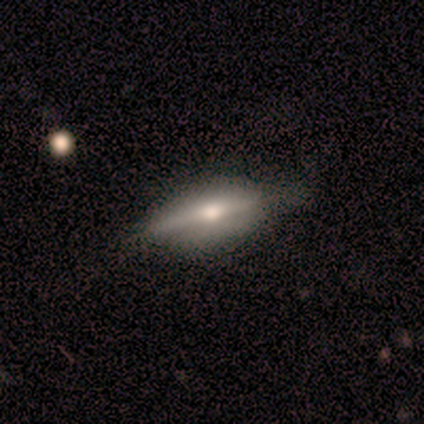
Smooth or featured: featured or disk — 60% (smooth — 20%)
Edge-on disk: yes — 67% (no — 33%)
Edge-on bulge: rounded — 100%
Merging: none — 75% (minor disturbance — 25%)